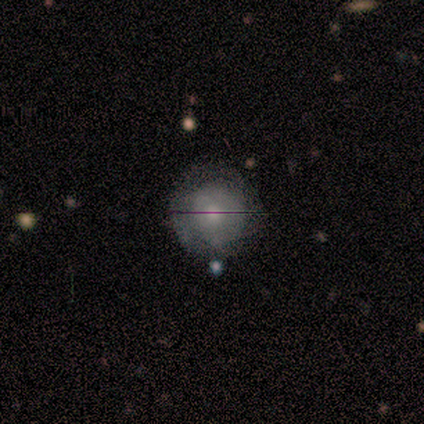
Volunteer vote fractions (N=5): Q: Smooth or featured?
A: smooth (40%); tied with: featured or disk (40%)
Q: How rounded?
A: round (50%); tied with: in between (50%)
Q: Merging?
A: none (50%); tied with: minor disturbance (50%)